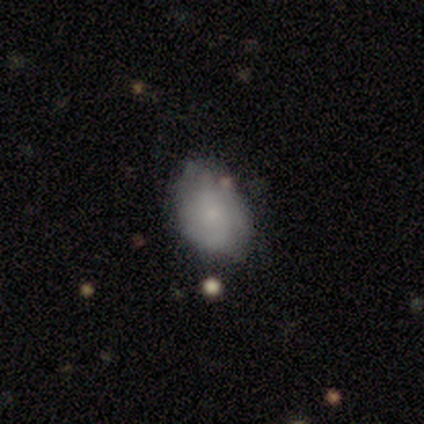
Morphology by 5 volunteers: type=smooth (80%); roundness=in between (100%); merging=none (60%).